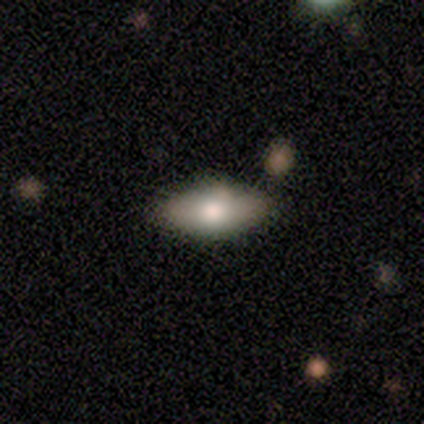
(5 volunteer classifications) smooth 80%, featured or disk 20%, star or artifact 0%. Down the decision tree: how rounded — in between (50%, tied with cigar-shaped); merging — none (100%).